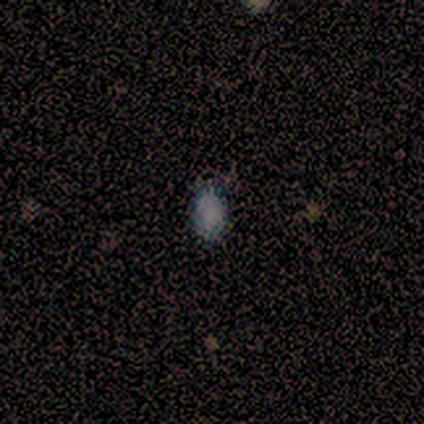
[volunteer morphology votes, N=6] type=smooth (100%); roundness=in between (67%); merging=none (67%).